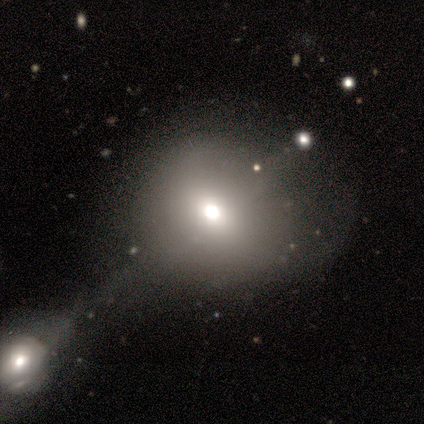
Smooth or featured?
  - smooth: 72% *
  - featured or disk: 15%
  - star or artifact: 12%
How rounded?
  - round: 79% *
  - in between: 21%
  - cigar-shaped: 0%
Merging?
  - none: 46% *
  - merger: 29%
  - major disturbance: 14%
  - minor disturbance: 11%